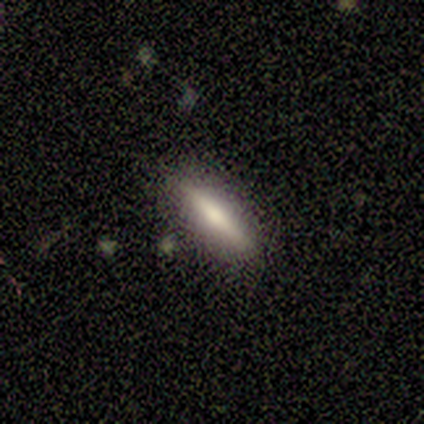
This appears to be a smooth galaxy with no disk features (73%) that is cigar-shaped (100%). Merging: none (100%).